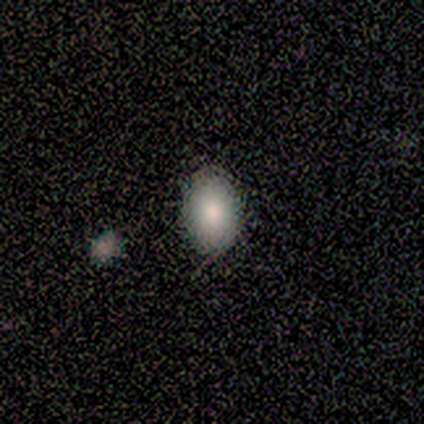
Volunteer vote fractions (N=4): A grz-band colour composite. It shows a smooth galaxy with no disk features (50%) that is in between round and cigar-shaped (100%). Merging: none (100%).